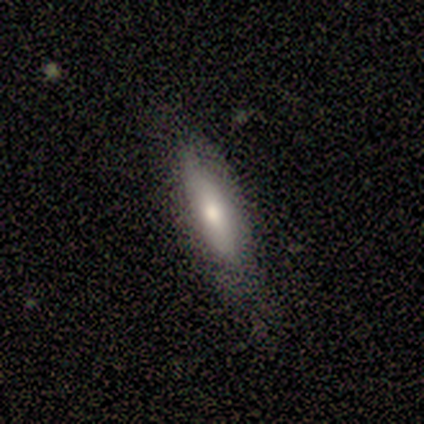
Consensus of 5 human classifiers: Volunteers were most divided on "how rounded": cigar-shaped: 80%, in between: 20%, round: 0%. More confident: smooth or featured — smooth (100%); merging — none (100%).